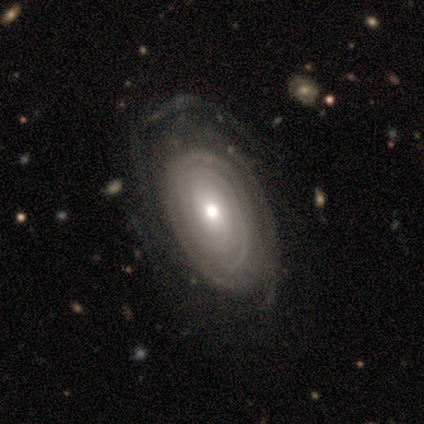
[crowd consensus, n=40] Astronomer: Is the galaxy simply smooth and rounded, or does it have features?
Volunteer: featured or disk — 75%.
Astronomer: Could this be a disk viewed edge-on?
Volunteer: no — 97%.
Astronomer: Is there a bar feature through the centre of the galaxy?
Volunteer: no — 86%.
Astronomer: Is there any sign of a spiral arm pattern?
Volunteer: yes — 76%.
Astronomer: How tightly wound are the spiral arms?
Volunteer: tight — 82%.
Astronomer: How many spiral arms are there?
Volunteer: can't tell — 50%.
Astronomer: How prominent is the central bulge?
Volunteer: moderate — 69%.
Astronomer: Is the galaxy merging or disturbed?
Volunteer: none — 76%.